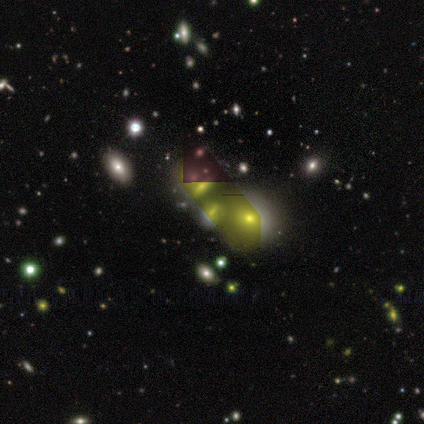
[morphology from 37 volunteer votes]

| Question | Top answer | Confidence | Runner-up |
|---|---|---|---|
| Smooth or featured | star or artifact | 51% | featured or disk (27%) |